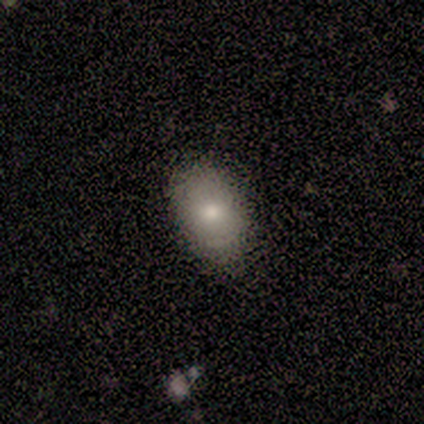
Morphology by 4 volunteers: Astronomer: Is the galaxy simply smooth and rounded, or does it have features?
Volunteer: smooth — 75%.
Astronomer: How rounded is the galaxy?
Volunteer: in between — 67%.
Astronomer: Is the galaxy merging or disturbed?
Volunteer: none — 75%.